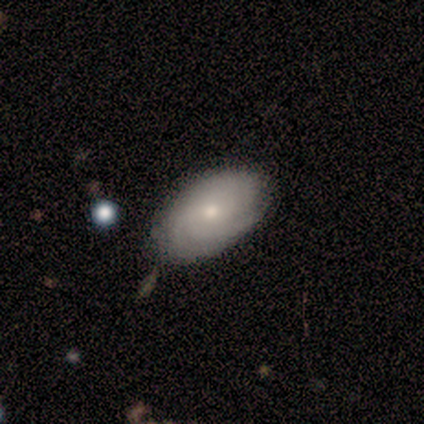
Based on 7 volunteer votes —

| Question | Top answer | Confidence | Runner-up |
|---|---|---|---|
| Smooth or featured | featured or disk | 86% | smooth (14%) |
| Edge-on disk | no | 100% | — |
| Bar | no | 83% | weak (17%) |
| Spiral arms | yes | 100% | — |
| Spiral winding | tight | 67% | loose (33%) |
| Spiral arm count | can't tell | 67% | 3 (17%) |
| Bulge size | small | 67% | moderate (33%) |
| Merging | none | 86% | minor disturbance (14%) |